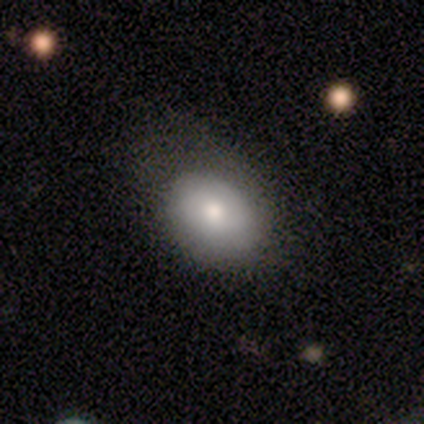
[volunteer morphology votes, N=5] smooth-or-featured: smooth: 80% | star or artifact: 20% | featured or disk: 0%
  how-rounded: in between: 100% | round: 0% | cigar-shaped: 0%
  merging: none: 50% | minor disturbance: 25% | merger: 25% | major disturbance: 0%